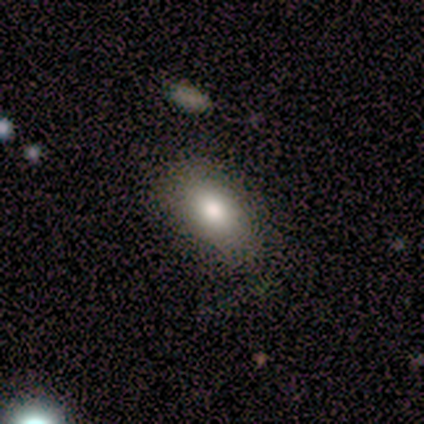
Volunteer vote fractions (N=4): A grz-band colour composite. It shows a smooth galaxy with no disk features (100%) that is in between round and cigar-shaped (75%). Merging: none (75%).